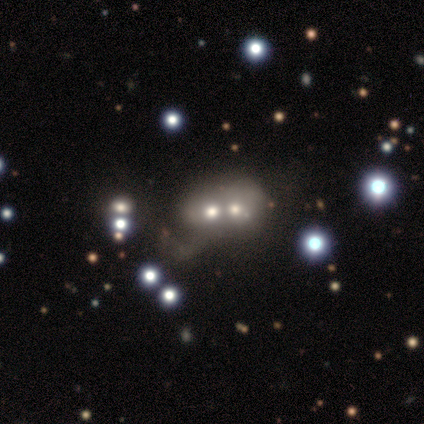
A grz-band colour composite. It shows a smooth galaxy with no disk features (40%, tied with star or artifact) that is round (100%). Merging: merger (100%).